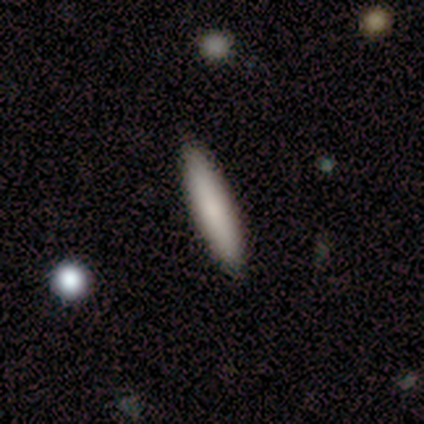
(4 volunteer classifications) Morphology: type=smooth (100%); roundness=cigar-shaped (100%); merging=none (100%).